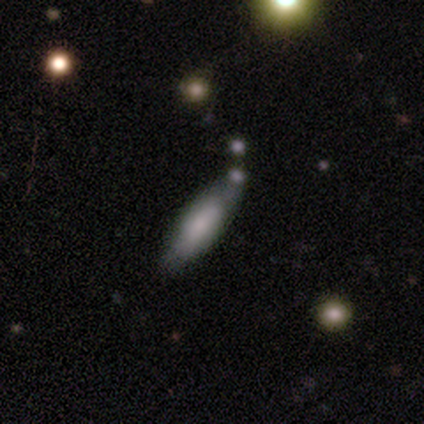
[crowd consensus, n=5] Volunteers were most divided on "bar" (2-way tie): weak: 50%, no: 50%, strong: 0%; "spiral winding" (2-way tie): tight: 50%, medium: 50%, loose: 0%; "spiral arm count" (2-way tie): 2: 50%, can't tell: 50%, 1: 0%, 3: 0%, 4: 0%, more than 4: 0%; "bulge size" (2-way tie): large: 50%, moderate: 50%, dominant: 0%, small: 0%, none: 0%. More confident: spiral arms — yes (100%); edge-on disk — no (67%); smooth or featured — featured or disk (60%); merging — minor disturbance (60%).